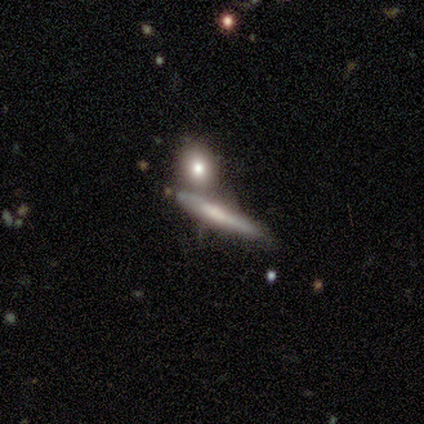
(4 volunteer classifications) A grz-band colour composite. It shows a smooth galaxy with no disk features (50%, tied with featured or disk) that is cigar-shaped (100%). Merging: merger (50%).